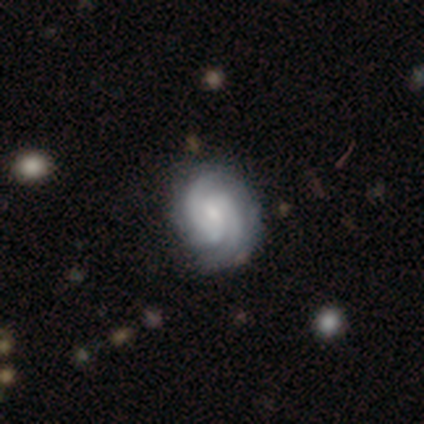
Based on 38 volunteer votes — Smooth or featured? featured or disk (82%)
Edge-on disk? no (100%)
Bar? weak (45%)
Spiral arms? yes (100%)
Spiral winding? medium (52%)
Spiral arm count? 2 (84%)
Bulge size? small (55%)
Merging? none (84%)